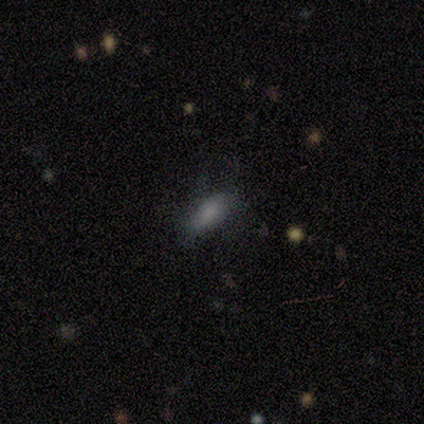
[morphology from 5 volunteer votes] Volunteers were most divided on "how rounded": cigar-shaped: 60%, in between: 40%, round: 0%. More confident: smooth or featured — smooth (100%); merging — none (60%).